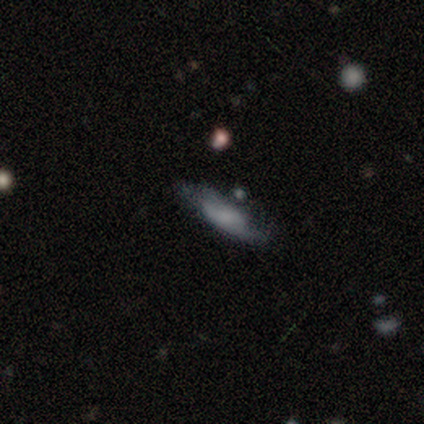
This appears to be a featured or disk galaxy (54%) with no bar (62%), 2 (56%) medium (56%) spiral arms (56%) and no central bulge (38%). Merging: none (46%).